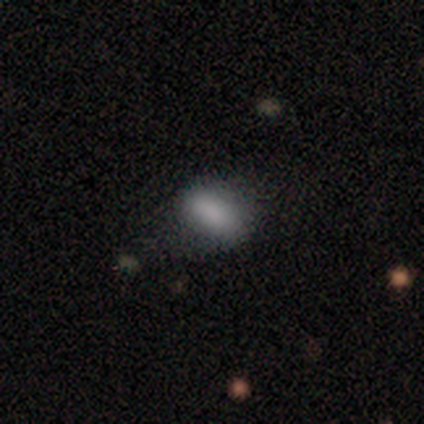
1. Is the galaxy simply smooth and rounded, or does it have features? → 100% smooth, 0% featured or disk, 0% star or artifact.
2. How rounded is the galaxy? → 100% in between, 0% round, 0% cigar-shaped.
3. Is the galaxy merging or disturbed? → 75% none, 25% minor disturbance, 0% major disturbance, 0% merger.